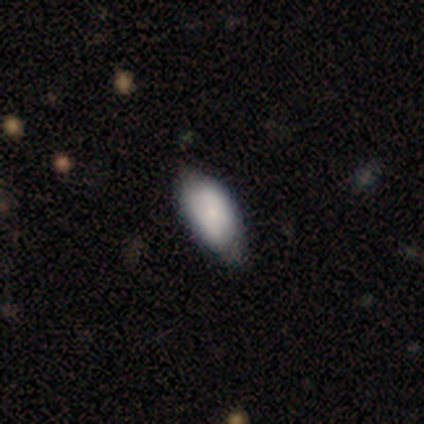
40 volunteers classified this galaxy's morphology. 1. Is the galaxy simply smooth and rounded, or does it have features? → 75% smooth, 18% featured or disk, 8% star or artifact.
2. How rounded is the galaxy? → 87% in between, 10% round, 3% cigar-shaped.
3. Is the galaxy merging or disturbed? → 70% none, 27% minor disturbance, 3% major disturbance, 0% merger.